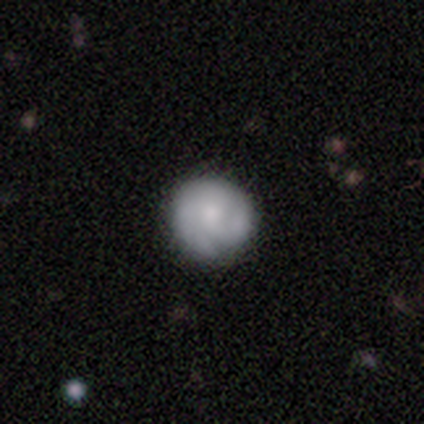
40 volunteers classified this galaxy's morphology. type=featured or disk (65%); edge-on=no (100%); bar=no (92%); spiral arms=yes (85%); winding=tight (73%); arm count=2 (41%); bulge=moderate (42%, tied with small); merging=none (61%).